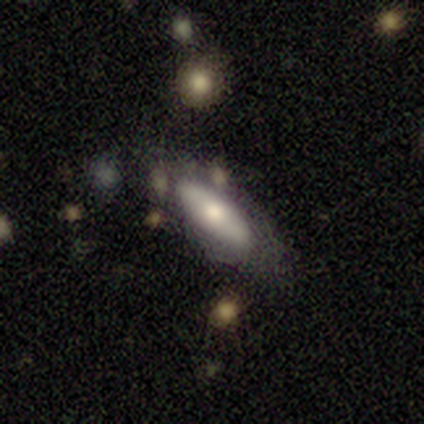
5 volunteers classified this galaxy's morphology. smooth_or_featured: smooth (p=0.60) [alt: featured or disk p=0.40]
how_rounded: in between (p=1.00)
merging: none (p=0.80) [alt: major disturbance p=0.20]